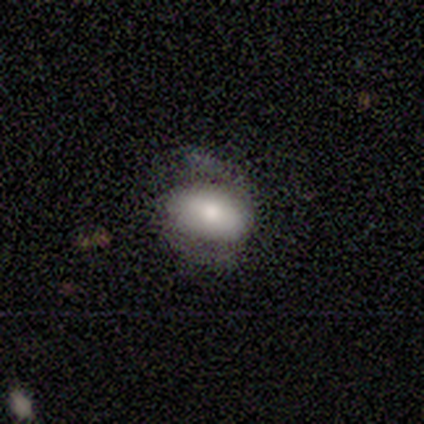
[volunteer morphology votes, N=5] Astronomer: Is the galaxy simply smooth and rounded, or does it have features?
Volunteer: smooth — 80%.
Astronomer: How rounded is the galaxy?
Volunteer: in between — 75%.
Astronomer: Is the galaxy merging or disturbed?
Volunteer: none — 40%, tied with minor disturbance at 40%.